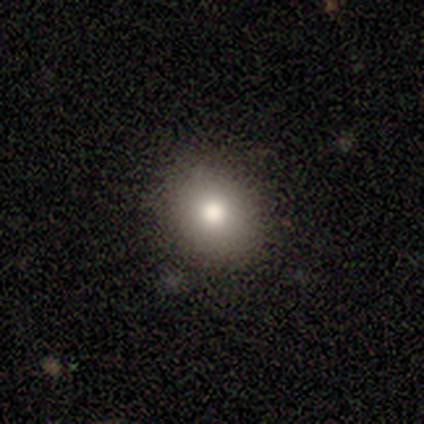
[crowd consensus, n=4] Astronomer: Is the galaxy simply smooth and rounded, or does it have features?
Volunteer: smooth — 100%.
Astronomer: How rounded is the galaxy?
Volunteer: round — 50%, tied with in between at 50%.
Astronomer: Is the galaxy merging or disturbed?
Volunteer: none — 100%.